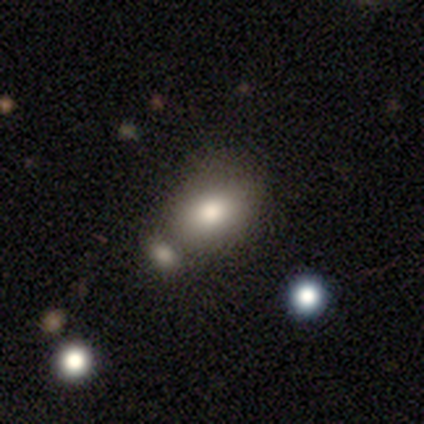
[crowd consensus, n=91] Smooth or featured: smooth — 82% (star or artifact — 13%)
How rounded: in between — 65% (round — 32%)
Merging: none — 61% (merger — 24%)